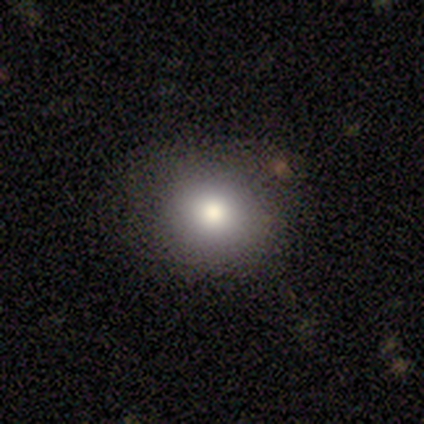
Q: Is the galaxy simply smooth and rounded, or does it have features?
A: smooth — 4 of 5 (80%).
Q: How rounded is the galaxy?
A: round — 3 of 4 (75%).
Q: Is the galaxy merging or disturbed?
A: none — 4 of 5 (80%).